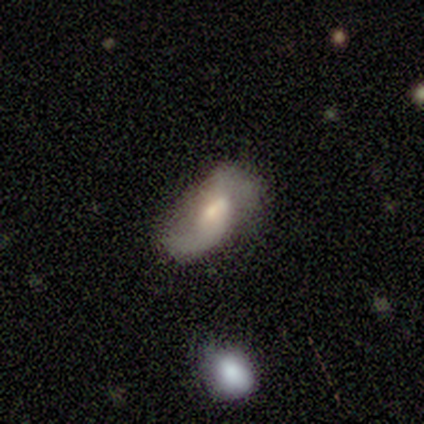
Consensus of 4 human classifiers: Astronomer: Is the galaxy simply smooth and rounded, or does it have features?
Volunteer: smooth — 50%.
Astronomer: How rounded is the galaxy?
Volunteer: in between — 100%.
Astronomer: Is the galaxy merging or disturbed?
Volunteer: minor disturbance — 67%.